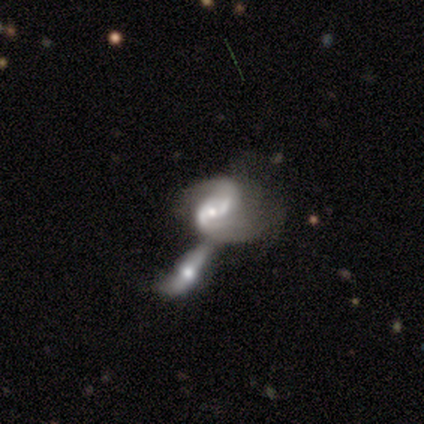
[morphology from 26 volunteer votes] Smooth or featured? 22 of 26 (85%) said featured or disk. Edge-on disk? 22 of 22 (100%) said no. Bar? 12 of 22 (55%) said no. Spiral arms? 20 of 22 (91%) said yes. Spiral winding? 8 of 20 (40%) said medium. Spiral arm count? 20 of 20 (100%) said 2. Bulge size? 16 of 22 (73%) said moderate. Merging? 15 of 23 (65%) said merger.